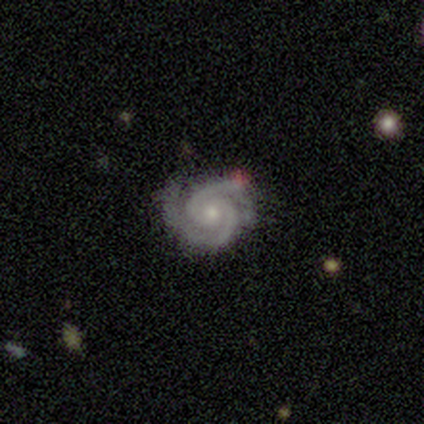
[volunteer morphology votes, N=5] Volunteers were most divided on "bar": no: 80%, weak: 20%, strong: 0%. More confident: smooth or featured — featured or disk (100%); edge-on disk — no (100%); spiral arms — yes (100%); merging — none (100%); spiral winding — tight (80%); spiral arm count — 2 (80%); bulge size — small (80%).